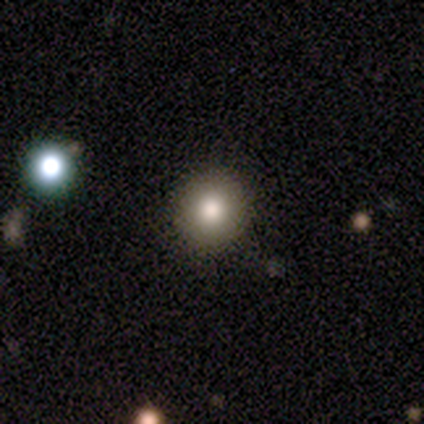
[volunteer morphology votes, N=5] smooth-or-featured: smooth: 100% | featured or disk: 0% | star or artifact: 0%
  how-rounded: round: 60% | in between: 40% | cigar-shaped: 0%
  merging: none: 80% | minor disturbance: 20% | major disturbance: 0% | merger: 0%